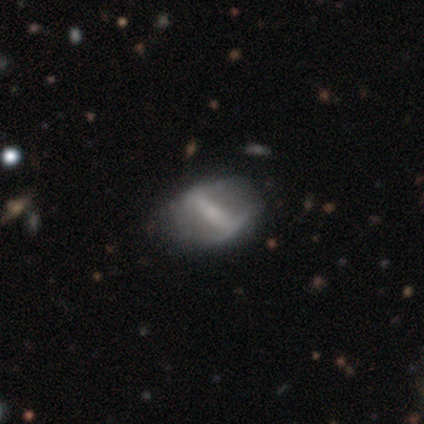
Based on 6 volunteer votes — Smooth or featured? featured or disk (100%)
Edge-on disk? no (100%)
Bar? strong (100%)
Spiral arms? no (83%)
Bulge size? small (50%)
Merging? none (50%)